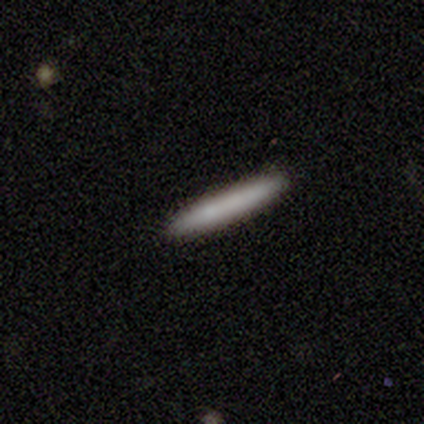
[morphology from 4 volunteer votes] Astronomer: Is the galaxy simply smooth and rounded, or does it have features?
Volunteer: featured or disk — 50%.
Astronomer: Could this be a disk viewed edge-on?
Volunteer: yes — 100%.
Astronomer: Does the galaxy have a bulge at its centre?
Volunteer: none — 100%.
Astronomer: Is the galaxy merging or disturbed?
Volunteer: none — 100%.